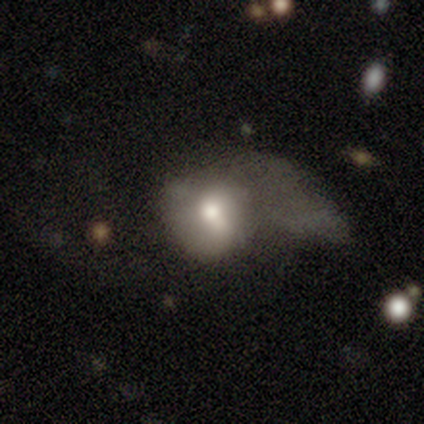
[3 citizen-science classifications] Smooth or featured?
  - smooth: 33% * (tied)
  - featured or disk: 33% * (tied)
  - star or artifact: 33% * (tied)
How rounded?
  - round: 100% *
  - in between: 0%
  - cigar-shaped: 0%
Merging?
  - major disturbance: 100% *
  - none: 0%
  - minor disturbance: 0%
  - merger: 0%